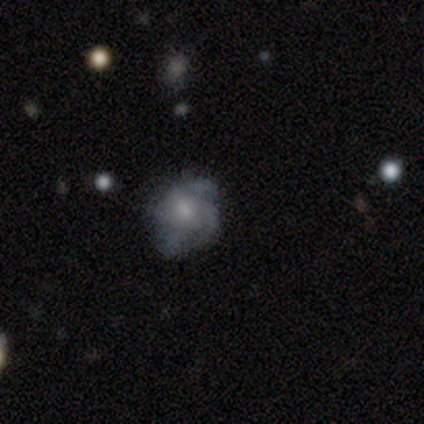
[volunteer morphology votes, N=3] Smooth or featured? featured or disk (100%)
Edge-on disk? no (100%)
Bar? no (67%)
Spiral arms? yes (100%)
Spiral winding? loose (67%)
Spiral arm count? 3 (67%)
Bulge size? moderate (33%, tied with small and none)
Merging? none (67%)